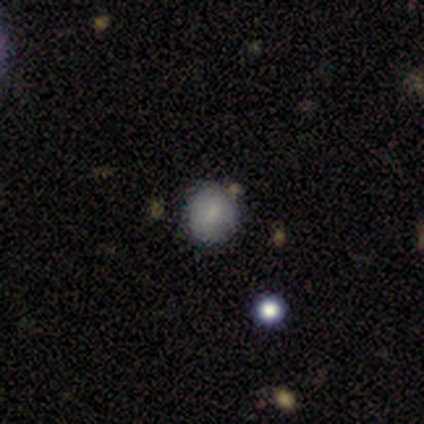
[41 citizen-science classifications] Q: Smooth or featured?
A: smooth (76%); runner-up: featured or disk (17%)
Q: How rounded?
A: round (90%); runner-up: in between (10%)
Q: Merging?
A: none (82%); runner-up: minor disturbance (13%)